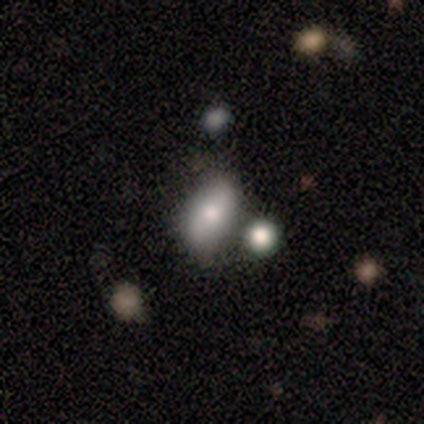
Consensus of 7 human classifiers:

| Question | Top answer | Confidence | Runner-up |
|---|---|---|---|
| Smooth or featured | smooth | 100% | — |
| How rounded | in between | 86% | cigar-shaped (14%) |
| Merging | none | 57% | minor disturbance (29%) |